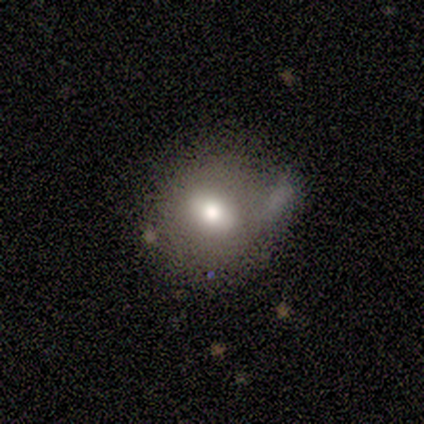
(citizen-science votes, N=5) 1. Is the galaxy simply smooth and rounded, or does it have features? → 100% smooth, 0% featured or disk, 0% star or artifact.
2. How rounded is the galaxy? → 100% round, 0% in between, 0% cigar-shaped.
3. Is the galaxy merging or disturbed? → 40% none, 20% minor disturbance, 20% major disturbance, 20% merger.